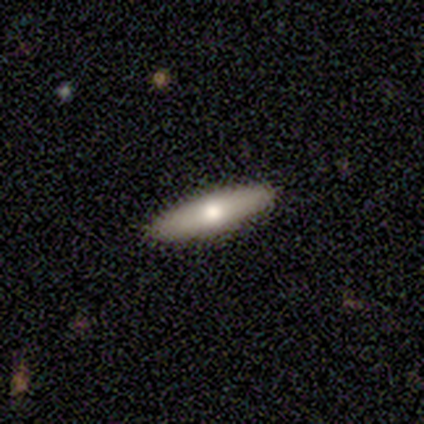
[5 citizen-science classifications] Smooth or featured? 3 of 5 (60%) said smooth. How rounded? 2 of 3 (67%) said cigar-shaped. Merging? 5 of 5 (100%) said none.